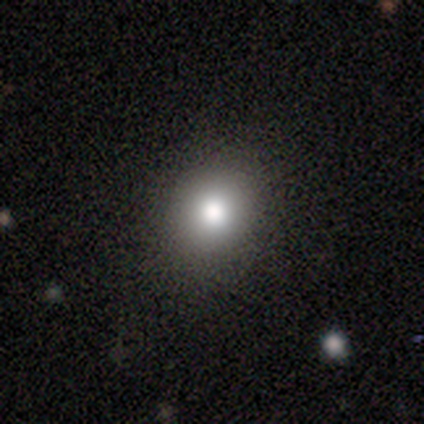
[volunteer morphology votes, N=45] This is likely a smooth galaxy (67%). How rounded: clearly round (80%). Merging: clearly none (88%).